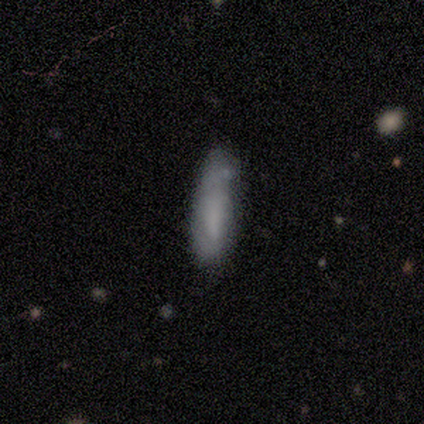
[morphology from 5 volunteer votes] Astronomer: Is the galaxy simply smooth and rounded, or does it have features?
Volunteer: smooth — 100%.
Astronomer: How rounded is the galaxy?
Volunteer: cigar-shaped — 80%.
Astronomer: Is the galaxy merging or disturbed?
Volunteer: none — 80%.